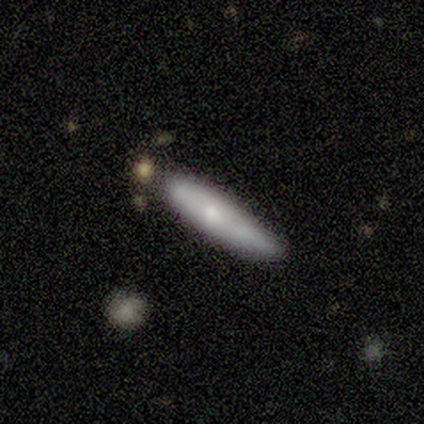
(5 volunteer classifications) smooth_or_featured: smooth (p=0.60) [alt: featured or disk p=0.40]
how_rounded: cigar-shaped (p=1.00)
merging: minor disturbance (p=0.80) [alt: major disturbance p=0.20]